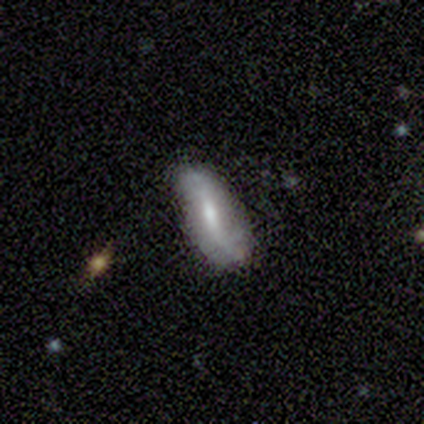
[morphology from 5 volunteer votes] A featured or disk galaxy (100%) with a weak bar (50%), 2 (100%) loose (100%) spiral arms (100%) and a small central bulge (75%).

Vote fractions:
- Smooth or featured? featured or disk: 100% / smooth: 0% / star or artifact: 0%
- Edge-on disk? no: 80% / yes: 20%
- Bar? weak: 50% / strong: 25% / no: 25%
- Spiral arms? yes: 100% / no: 0%
- Spiral winding? loose: 100% / tight: 0% / medium: 0%
- Spiral arm count? 2: 100% / 1: 0% / 3: 0% / 4: 0% / more than 4: 0% / can't tell: 0%
- Bulge size? small: 75% / moderate: 25% / dominant: 0% / large: 0% / none: 0%
- Merging? none: 100% / minor disturbance: 0% / major disturbance: 0% / merger: 0%